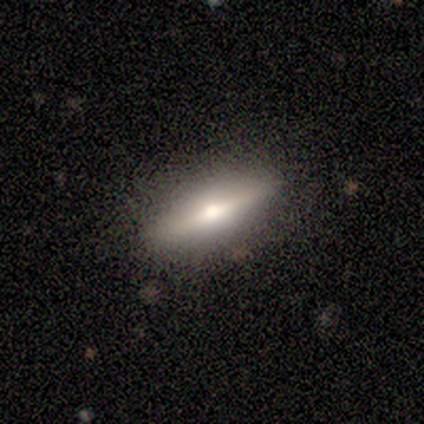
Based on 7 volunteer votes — This is clearly a featured or disk galaxy (100%). It is likely viewed edge-on (71%). Edge-on bulge: clearly rounded (100%). Merging: likely none (71%).